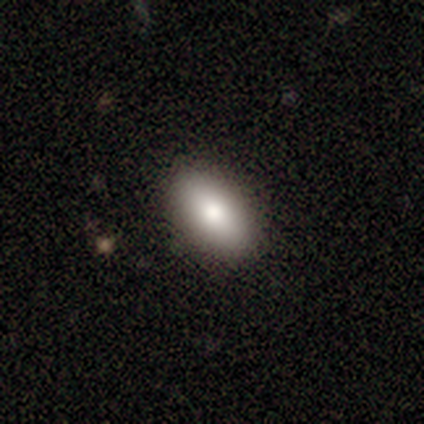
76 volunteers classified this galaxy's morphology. smooth-or-featured: smooth: 87% | featured or disk: 7% | star or artifact: 7%
  how-rounded: in between: 94% | round: 5% | cigar-shaped: 2%
  merging: none: 59% | minor disturbance: 3% | merger: 3% | major disturbance: 1%